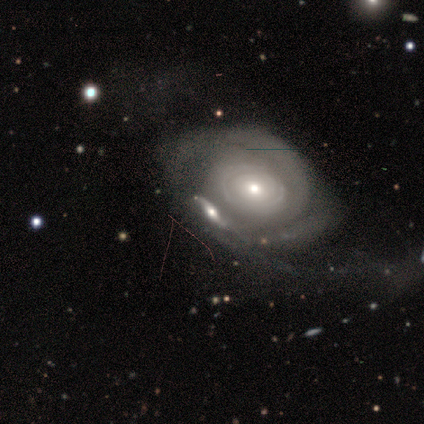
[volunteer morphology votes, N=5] featured or disk 80%, smooth 20%, star or artifact 0%. Down the decision tree: edge-on disk — no (100%); bar — no (100%); spiral arms — yes (100%); spiral arm count — can't tell (75%); spiral winding — tight (75%); bulge size — small (75%); merging — merger (60%).